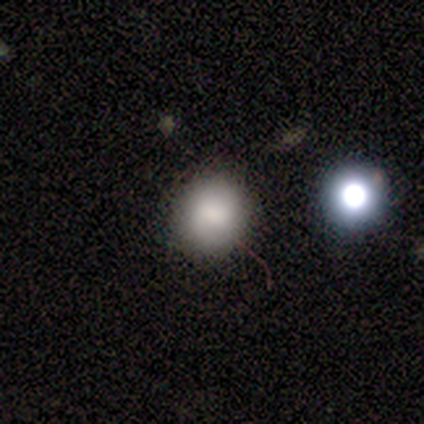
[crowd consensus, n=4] Smooth or featured? 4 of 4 (100%) said smooth. How rounded? 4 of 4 (100%) said round. Merging? 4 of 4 (100%) said none.